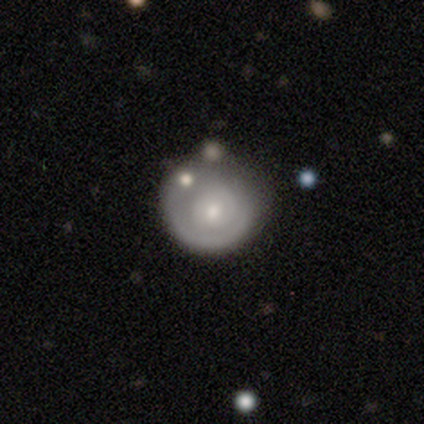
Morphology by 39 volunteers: smooth-or-featured: featured or disk: 67% | smooth: 33% | star or artifact: 0%
  disk-edge-on: no: 100% | yes: 0%
    bar: no: 81% | weak: 15% | strong: 4%
    has-spiral-arms: no: 69% | yes: 31%
    bulge-size: small: 50% | moderate: 35% | large: 15% | dominant: 0% | none: 0%
  merging: none: 31% | minor disturbance: 26% | major disturbance: 13% | merger: 8%